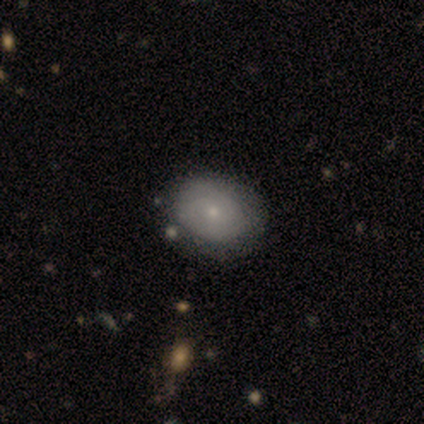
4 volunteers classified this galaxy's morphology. type=smooth (50%, tied with featured or disk); roundness=round (100%); merging=none (75%).